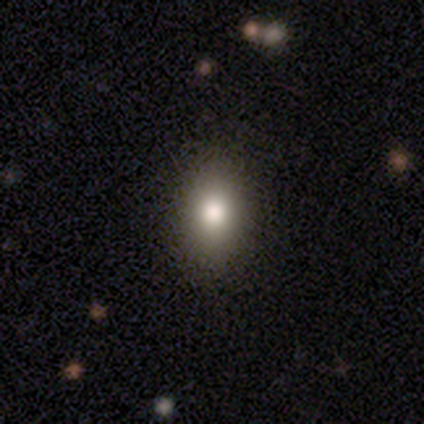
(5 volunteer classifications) Overall: smooth (40%, tied with star or artifact). How rounded: in between (100%). Merging: none (100%).